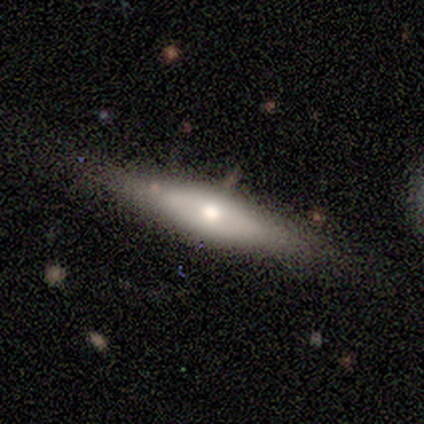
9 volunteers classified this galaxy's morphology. Smooth or featured? featured or disk (56%)
Edge-on disk? yes (100%)
Edge-on bulge? rounded (100%)
Merging? none (78%)